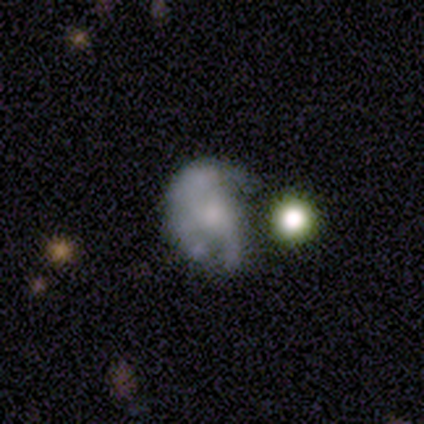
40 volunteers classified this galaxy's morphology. Q: Smooth or featured?
A: featured or disk (60%); runner-up: smooth (28%)
Q: Edge-on disk?
A: no (100%)
Q: Bar?
A: no (96%); runner-up: weak (4%)
Q: Spiral arms?
A: no (62%); runner-up: yes (38%)
Q: Bulge size?
A: small (42%); runner-up: moderate (29%)
Q: Merging?
A: major disturbance (46%); runner-up: none (23%)